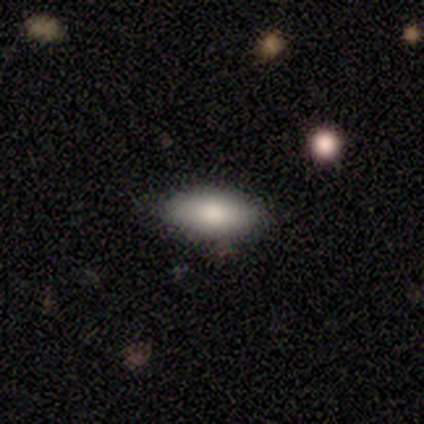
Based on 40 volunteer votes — smooth 78%, featured or disk 15%, star or artifact 8%. Down the decision tree: how rounded — in between (94%); merging — none (78%).